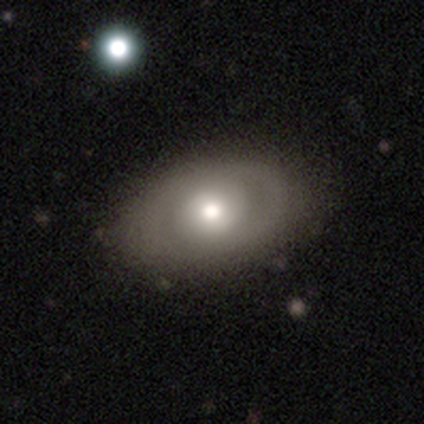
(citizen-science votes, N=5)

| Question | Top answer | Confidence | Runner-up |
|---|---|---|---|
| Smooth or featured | featured or disk | 80% | smooth (20%) |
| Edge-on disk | no | 100% | — |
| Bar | no | 75% | weak (25%) |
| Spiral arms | no | 75% | yes (25%) |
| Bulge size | moderate | 50% | large (25%) |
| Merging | none | 80% | minor disturbance (20%) |